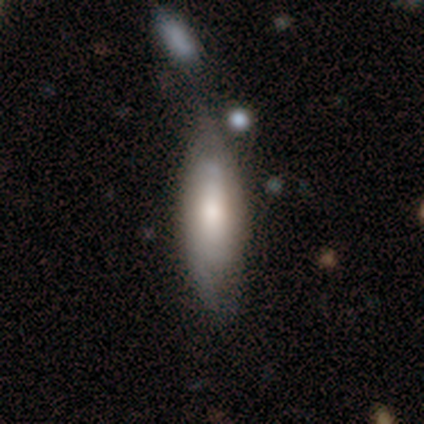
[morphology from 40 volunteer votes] Volunteers were most divided on "merging": minor disturbance: 37%, none: 29%, major disturbance: 18%, merger: 16%. More confident: how rounded — in between (61%); smooth or featured — smooth (57%).